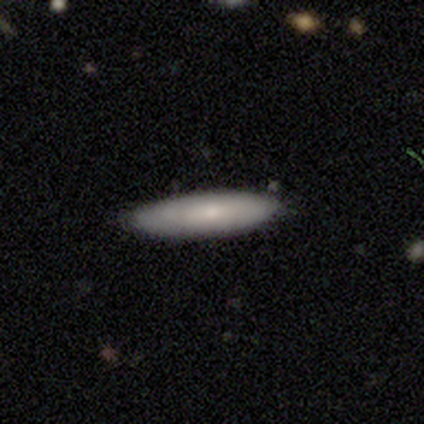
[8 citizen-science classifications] Smooth or featured?
  - smooth: 88% *
  - featured or disk: 12%
  - star or artifact: 0%
How rounded?
  - in between: 57% *
  - cigar-shaped: 43%
  - round: 0%
Merging?
  - none: 100% *
  - minor disturbance: 0%
  - major disturbance: 0%
  - merger: 0%